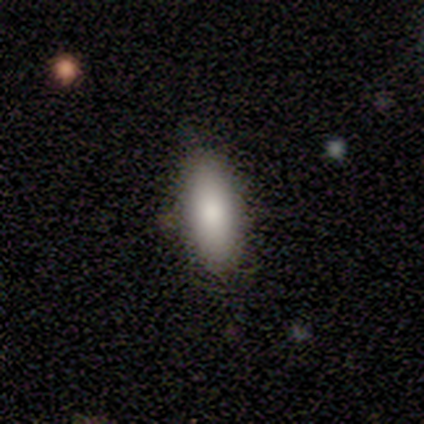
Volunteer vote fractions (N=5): This is clearly a smooth galaxy (100%). How rounded: clearly in between (100%). Merging: clearly none (100%).